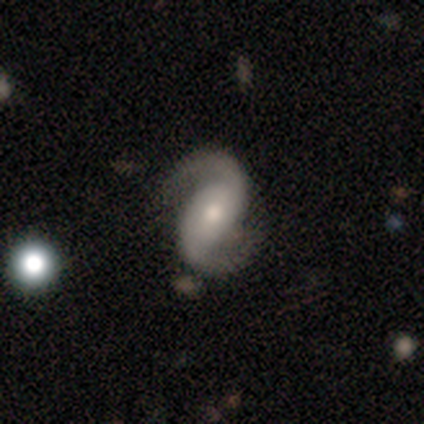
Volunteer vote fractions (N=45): Smooth or featured: featured or disk — 84% (smooth — 9%)
Edge-on disk: no — 97% (yes — 3%)
Bar: no — 43% (weak — 35%)
Spiral arms: yes — 100%
Spiral winding: loose — 46% (medium — 43%)
Spiral arm count: 2 — 97% (can't tell — 3%)
Bulge size: moderate — 54% (small — 43%)
Merging: none — 79% (minor disturbance — 12%)